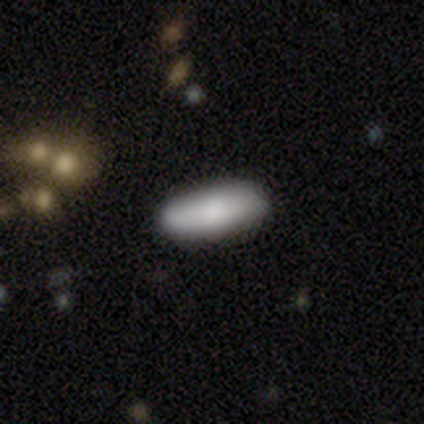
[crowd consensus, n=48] smooth_or_featured: smooth (p=0.83) [alt: featured or disk p=0.12]
how_rounded: in between (p=0.53) [alt: cigar-shaped p=0.47]
merging: none (p=0.93) [alt: minor disturbance p=0.04]